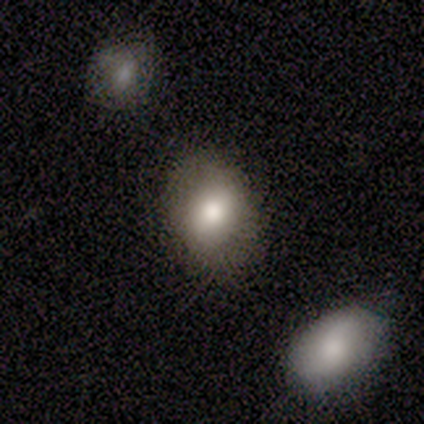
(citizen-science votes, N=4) Volunteers were most divided on "smooth or featured": smooth: 75%, star or artifact: 25%, featured or disk: 0%. More confident: how rounded — in between (100%); merging — none (100%).